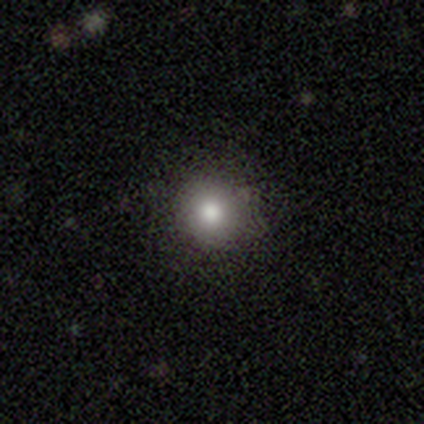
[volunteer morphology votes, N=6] smooth 67%, featured or disk 17%, star or artifact 17%. Down the decision tree: how rounded — round (100%); merging — none (80%).